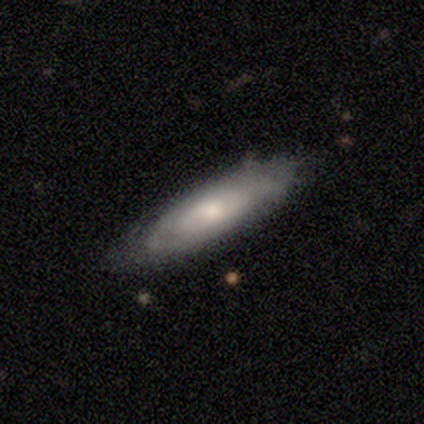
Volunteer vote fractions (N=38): This appears to be a featured or disk galaxy (74%) with no bar (68%), tight (71%) spiral arms (64%) and a moderate central bulge (50%). Merging: none (68%).